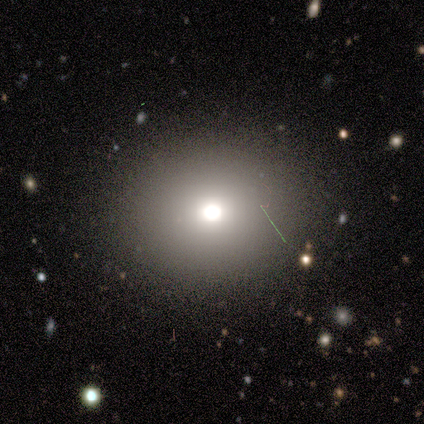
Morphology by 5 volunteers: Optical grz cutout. It shows a smooth galaxy with no disk features (60%) that is round (67%). Merging: none (100%).